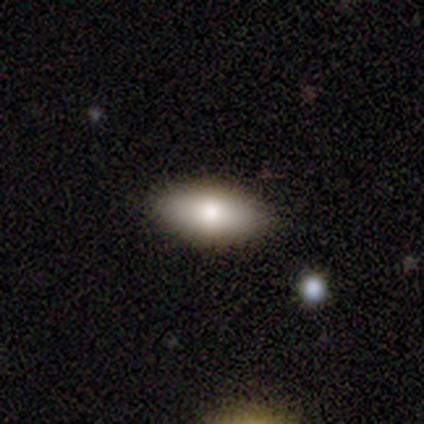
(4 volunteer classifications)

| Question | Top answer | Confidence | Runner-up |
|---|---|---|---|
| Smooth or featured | smooth | 75% | star or artifact (25%) |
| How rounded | in between | 100% | — |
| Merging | none | 100% | — |